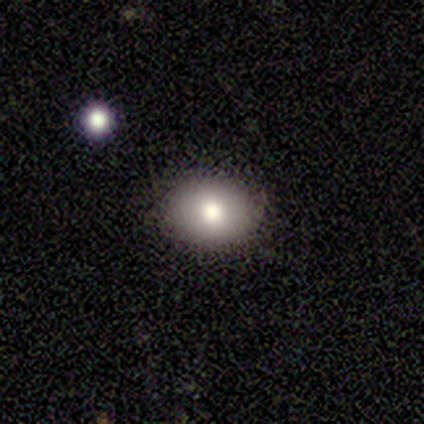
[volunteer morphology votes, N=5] Smooth or featured? 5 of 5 (100%) said smooth. How rounded? 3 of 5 (60%) said in between. Merging? 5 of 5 (100%) said none.